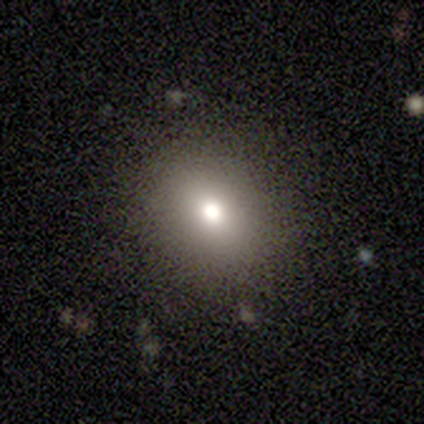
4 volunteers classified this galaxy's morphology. Q: Smooth or featured?
A: smooth (75%); runner-up: featured or disk (25%)
Q: How rounded?
A: round (67%); runner-up: in between (33%)
Q: Merging?
A: none (100%)